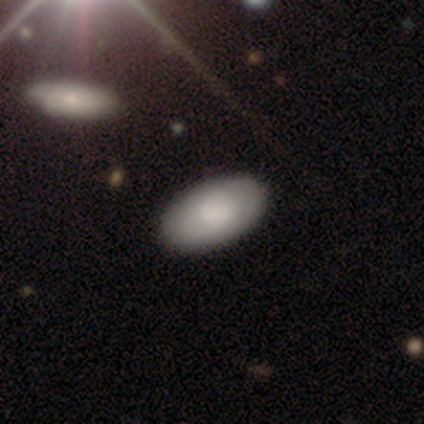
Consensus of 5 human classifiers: This appears to be a smooth galaxy with no disk features (100%) that is in between round and cigar-shaped (100%). Merging: none (100%).